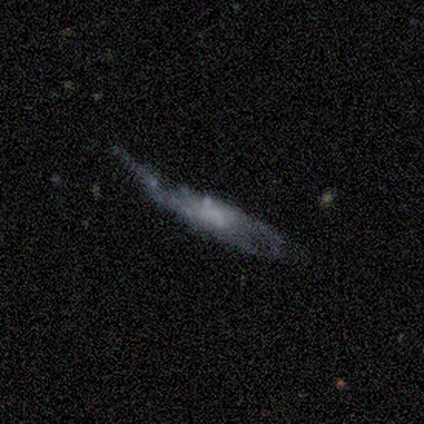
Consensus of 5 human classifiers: A smooth galaxy with no disk features (40%, tied with featured or disk) that is cigar-shaped (100%).

Vote fractions:
- Smooth or featured? smooth: 40% (tied) / featured or disk: 40% (tied) / star or artifact: 20%
- How rounded? cigar-shaped: 100% / round: 0% / in between: 0%
- Merging? major disturbance: 75% / none: 25% / minor disturbance: 0% / merger: 0%